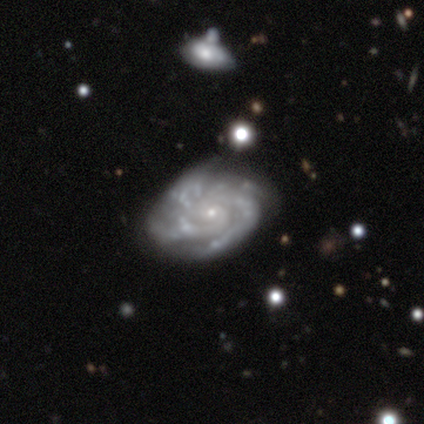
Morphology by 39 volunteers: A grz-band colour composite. It shows a featured or disk galaxy (92%) with no bar (69%), 3 (33%) tight (53%) spiral arms (100%) and a small central bulge (89%). Merging: none (58%).